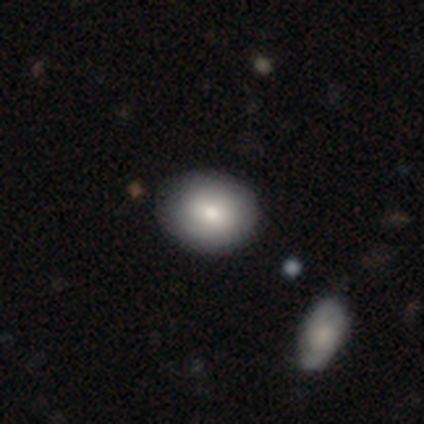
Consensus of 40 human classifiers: Smooth or featured? 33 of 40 (82%) said smooth. How rounded? 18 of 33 (55%) said in between. Merging? 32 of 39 (82%) said none.